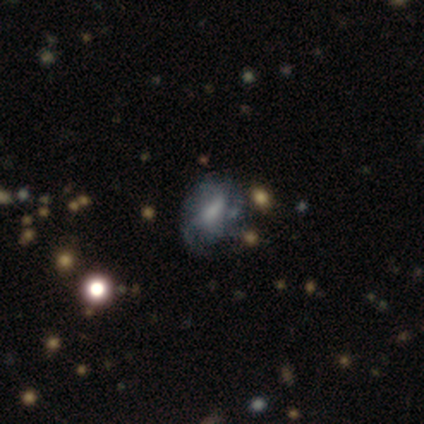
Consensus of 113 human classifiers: smooth_or_featured: featured or disk (p=0.63) [alt: smooth p=0.23]
disk_edge_on: no (p=1.00)
bar: weak (p=0.39) [tied with: no p=0.39]
has_spiral_arms: yes (p=0.72) [alt: no p=0.28]
spiral_winding: medium (p=0.37) [alt: loose p=0.33]
spiral_arm_count: can't tell (p=0.53) [alt: 2 p=0.27]
bulge_size: small (p=0.32) [alt: moderate p=0.31]
merging: none (p=0.46) [alt: minor disturbance p=0.28]